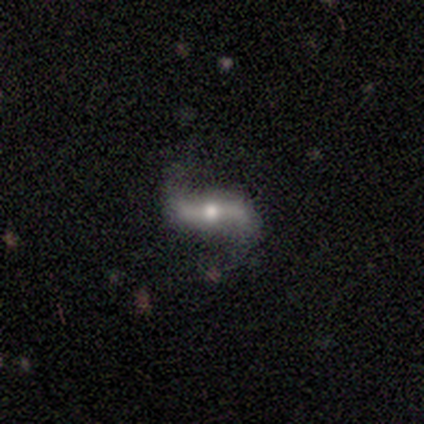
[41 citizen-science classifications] Overall: featured or disk (80%). Edge-on disk: no (85%). Bar: strong (64%; no 25%). Spiral arms: yes (93%). Spiral arm count: 2 (100%). Spiral winding: loose (81%). Bulge size: moderate (75%). Merging: none (68%).